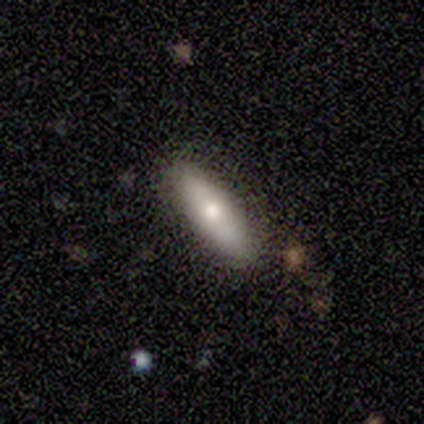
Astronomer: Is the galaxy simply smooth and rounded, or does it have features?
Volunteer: smooth — 60% (runner-up: featured or disk, 40%).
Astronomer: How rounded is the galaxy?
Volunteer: in between — 67%.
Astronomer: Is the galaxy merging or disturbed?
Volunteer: none — 80%.